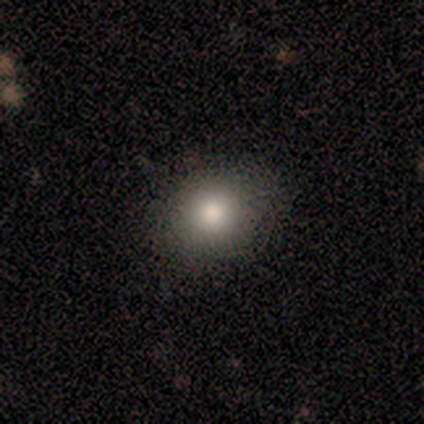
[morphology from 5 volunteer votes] smooth_or_featured: smooth (p=1.00)
how_rounded: round (p=0.80) [alt: in between p=0.20]
merging: none (p=1.00)